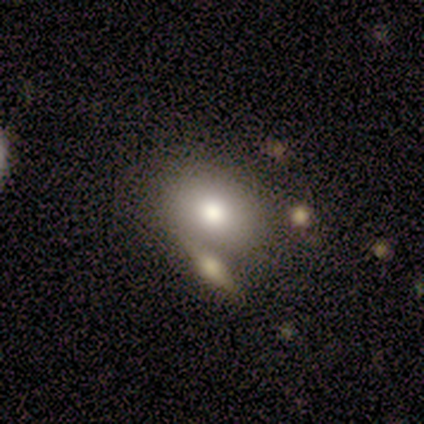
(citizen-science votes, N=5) This is clearly a smooth galaxy (100%). How rounded: likely in between (60%). Merging: clearly none (80%).